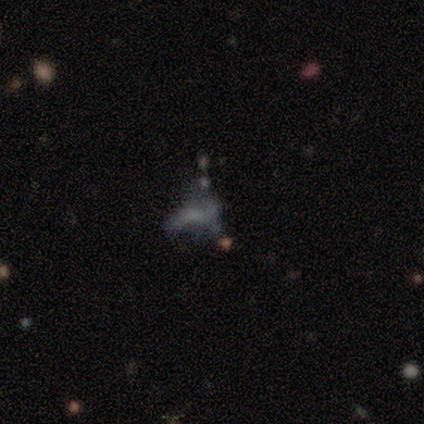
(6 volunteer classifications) A smooth galaxy with no disk features (67%) that is in between round and cigar-shaped (100%).

Vote fractions:
- Smooth or featured? smooth: 67% / featured or disk: 33% / star or artifact: 0%
- How rounded? in between: 100% / round: 0% / cigar-shaped: 0%
- Merging? none: 50% / minor disturbance: 33% / major disturbance: 17% / merger: 0%